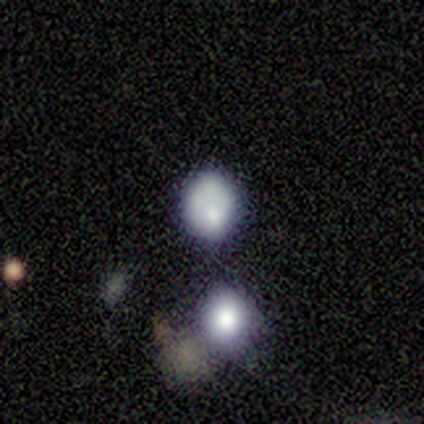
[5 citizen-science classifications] Smooth or featured?
  - smooth: 100% *
  - featured or disk: 0%
  - star or artifact: 0%
How rounded?
  - round: 80% *
  - in between: 20%
  - cigar-shaped: 0%
Merging?
  - none: 60% *
  - minor disturbance: 20%
  - merger: 20%
  - major disturbance: 0%